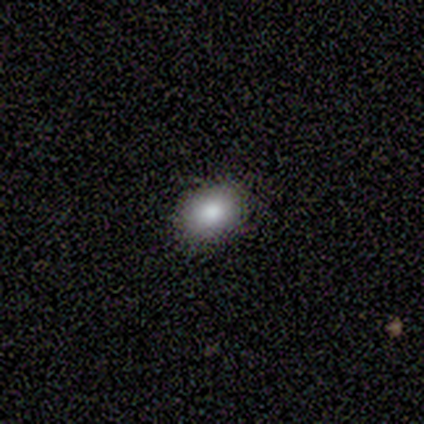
Smooth or featured: smooth — 80% (featured or disk — 20%)
How rounded: in between — 75% (round — 25%)
Merging: none — 100%